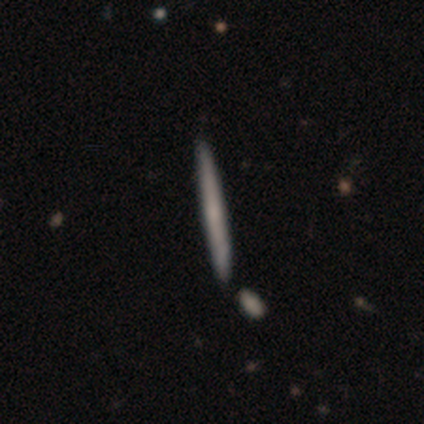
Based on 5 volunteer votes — Smooth or featured: smooth — 60% (featured or disk — 40%)
How rounded: cigar-shaped — 100%
Merging: none — 80% (minor disturbance — 20%)